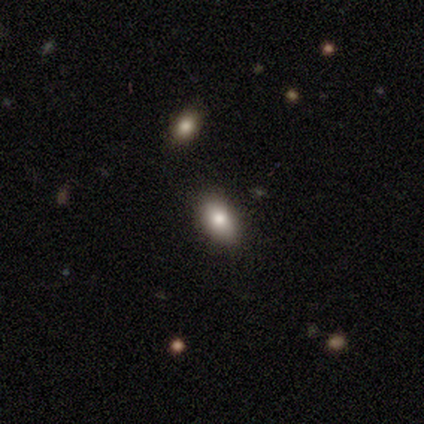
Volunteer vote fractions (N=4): Volunteers were most divided on "merging": none: 67%, minor disturbance: 33%, major disturbance: 0%, merger: 0%. More confident: how rounded — in between (100%); smooth or featured — smooth (75%).